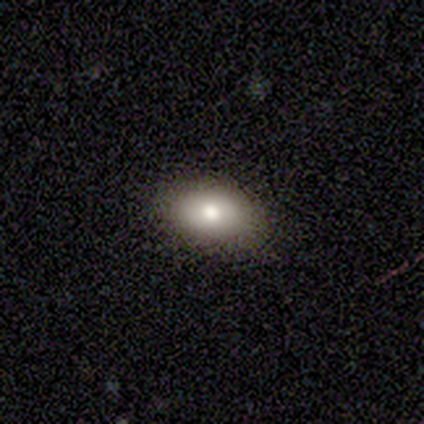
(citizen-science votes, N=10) smooth_or_featured: smooth (p=0.80) [alt: featured or disk p=0.20]
how_rounded: in between (p=1.00)
merging: none (p=0.80) [alt: minor disturbance p=0.20]